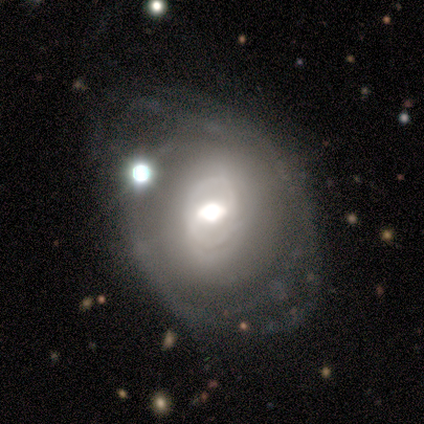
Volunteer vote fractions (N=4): Overall: featured or disk (75%). Edge-on disk: no (67%; yes 33%). Bar: weak (100%). Spiral arms: no (100%). Bulge size: large (50%, tied with moderate). Merging: none (100%).